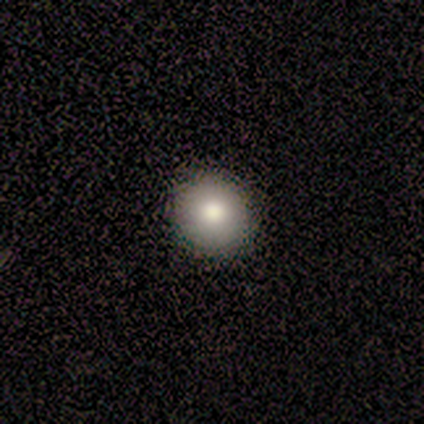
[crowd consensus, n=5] Smooth or featured: smooth — 60% (star or artifact — 40%)
How rounded: round — 100%
Merging: none — 100%